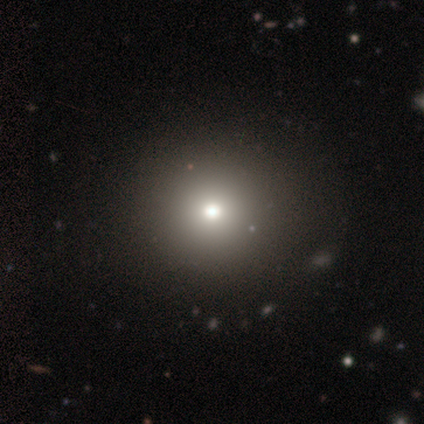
smooth_or_featured: smooth (p=0.78) [alt: star or artifact p=0.17]
how_rounded: round (p=0.93) [alt: in between p=0.07]
merging: none (p=0.58) [alt: minor disturbance p=0.02]